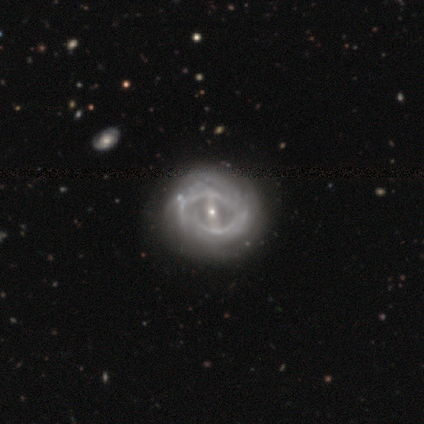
smooth_or_featured: featured or disk (p=1.00)
disk_edge_on: no (p=0.95) [alt: yes p=0.05]
bar: strong (p=0.45) [alt: weak p=0.37]
has_spiral_arms: yes (p=0.66) [alt: no p=0.34]
spiral_winding: tight (p=0.44) [alt: medium p=0.40]
spiral_arm_count: can't tell (p=0.56) [alt: 2 p=0.36]
bulge_size: small (p=0.76) [alt: moderate p=0.21]
merging: none (p=0.35) [alt: minor disturbance p=0.12]